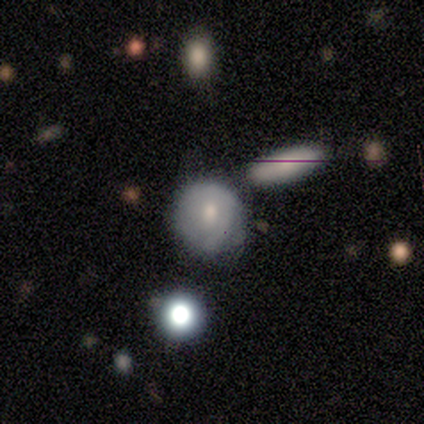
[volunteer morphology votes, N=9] Smooth or featured? 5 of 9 (56%) said featured or disk. Edge-on disk? 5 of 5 (100%) said no. Bar? 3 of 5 (60%) said no. Spiral arms? 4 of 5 (80%) said no. Bulge size? 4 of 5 (80%) said moderate. Merging? 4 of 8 (50%) said none.